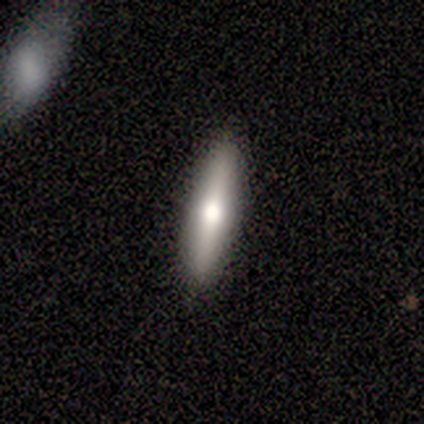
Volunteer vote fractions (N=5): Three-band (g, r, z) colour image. It shows a star or artifact, not a galaxy (60%).